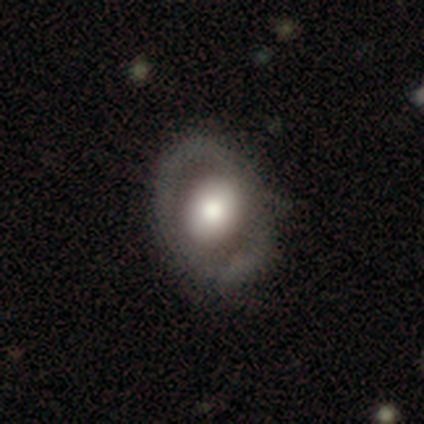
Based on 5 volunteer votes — This is likely a featured or disk galaxy (60%). It is likely not viewed edge-on (67%). Bar: clearly no (100%). Spiral arm pattern: possibly yes (50%, tied with no). Spiral arm count: clearly 1 (100%). Spiral winding: clearly tight (100%). Central bulge: possibly large (50%, tied with moderate). Merging: likely none (75%).